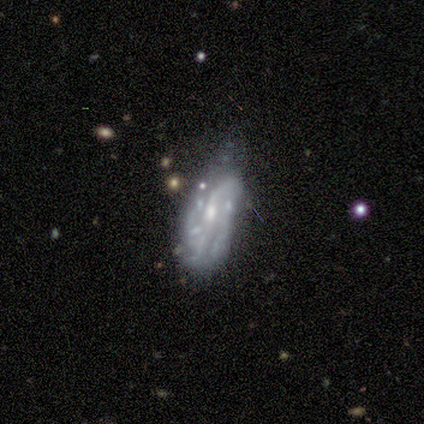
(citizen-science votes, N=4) This appears to be a featured or disk galaxy (100%) with a weak bar (67%), no spiral arms (67%) and a small central bulge (67%). Merging: minor disturbance (75%).